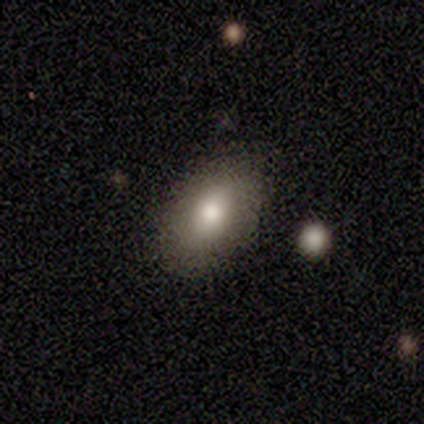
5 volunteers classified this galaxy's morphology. Smooth or featured? smooth (100%)
How rounded? in between (80%)
Merging? none (60%)